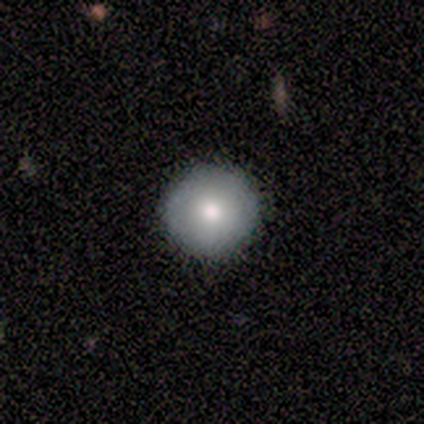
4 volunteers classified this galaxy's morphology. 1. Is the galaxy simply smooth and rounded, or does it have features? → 100% smooth, 0% featured or disk, 0% star or artifact.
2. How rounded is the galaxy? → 100% round, 0% in between, 0% cigar-shaped.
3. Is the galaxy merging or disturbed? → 100% none, 0% minor disturbance, 0% major disturbance, 0% merger.